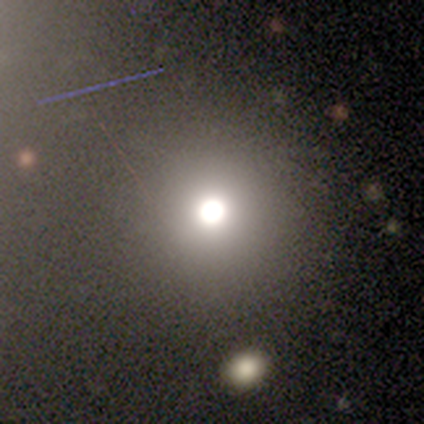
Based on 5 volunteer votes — smooth_or_featured: smooth (p=0.80) [alt: star or artifact p=0.20]
how_rounded: round (p=1.00)
merging: none (p=1.00)